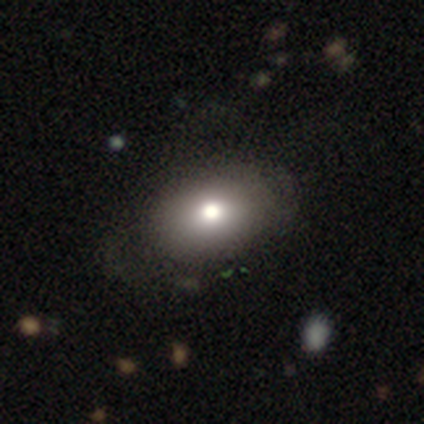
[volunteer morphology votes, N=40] type=smooth (68%); roundness=in between (89%); merging=none (46%).